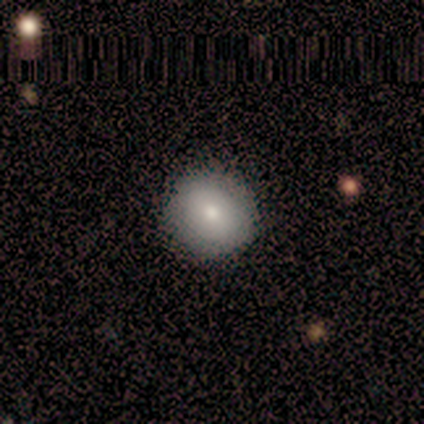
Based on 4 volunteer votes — Consensus on every question: smooth or featured — smooth (100%); how rounded — round (100%); merging — none (100%).